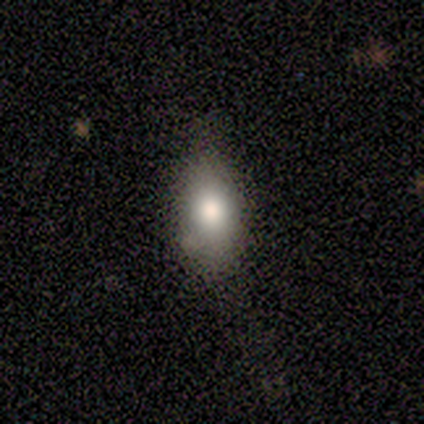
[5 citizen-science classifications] A smooth galaxy with no disk features (80%) that is in between round and cigar-shaped (100%).

Vote fractions:
- Smooth or featured? smooth: 80% / featured or disk: 20% / star or artifact: 0%
- How rounded? in between: 100% / round: 0% / cigar-shaped: 0%
- Merging? none: 60% / minor disturbance: 40% / major disturbance: 0% / merger: 0%